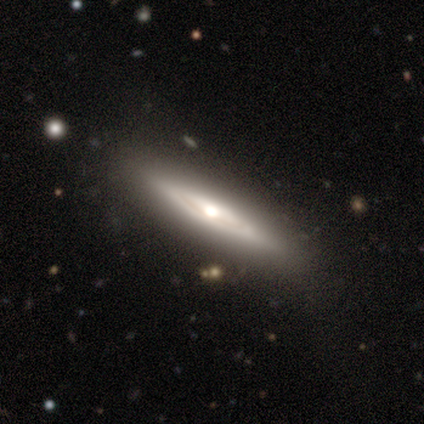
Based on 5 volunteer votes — Overall: featured or disk (80%). Edge-on disk: yes (100%). Edge-on bulge: rounded (100%). Merging: none (100%).